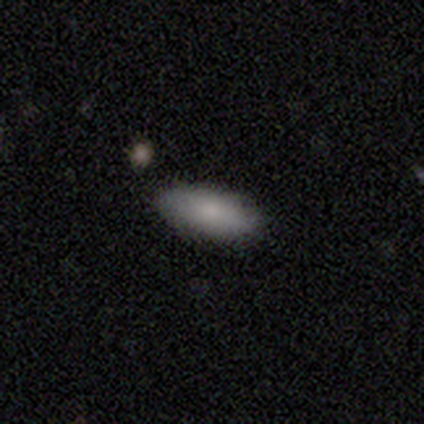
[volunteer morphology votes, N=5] smooth-or-featured: smooth: 100% | featured or disk: 0% | star or artifact: 0%
  how-rounded: in between: 100% | round: 0% | cigar-shaped: 0%
  merging: none: 100% | minor disturbance: 0% | major disturbance: 0% | merger: 0%